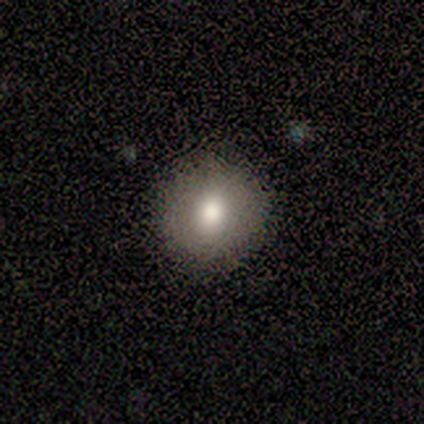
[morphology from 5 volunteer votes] smooth_or_featured: smooth (p=0.40) [tied with: featured or disk p=0.40]
how_rounded: round (p=0.50) [tied with: in between p=0.50]
merging: none (p=1.00)